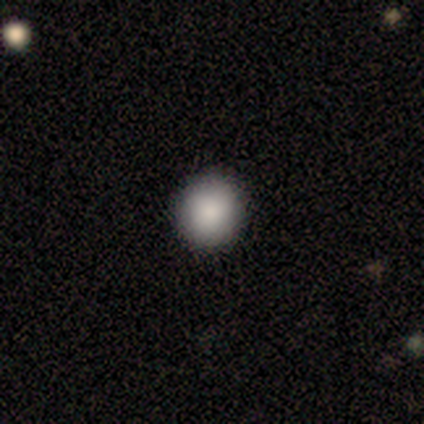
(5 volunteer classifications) smooth-or-featured: smooth: 80% | star or artifact: 20% | featured or disk: 0%
  how-rounded: round: 75% | in between: 25% | cigar-shaped: 0%
  merging: none: 100% | minor disturbance: 0% | major disturbance: 0% | merger: 0%